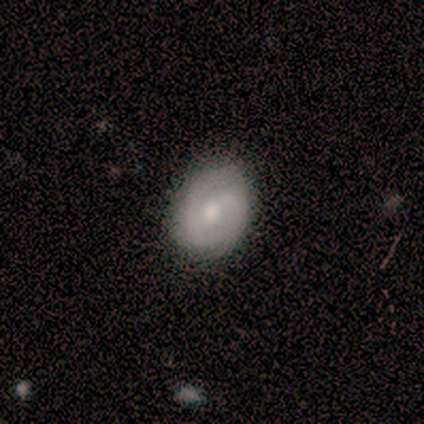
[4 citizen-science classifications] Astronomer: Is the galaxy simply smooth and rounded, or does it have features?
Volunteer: featured or disk — 75%.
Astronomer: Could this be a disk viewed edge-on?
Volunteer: no — 100%.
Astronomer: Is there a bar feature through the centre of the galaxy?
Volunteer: no — 67%.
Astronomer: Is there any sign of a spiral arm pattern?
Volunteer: yes — 100%.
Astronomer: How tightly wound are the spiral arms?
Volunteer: medium — 67%.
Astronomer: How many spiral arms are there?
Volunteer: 2 — 67%.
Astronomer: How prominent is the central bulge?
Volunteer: moderate — 67%.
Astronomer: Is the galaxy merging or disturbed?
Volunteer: none — 75%.